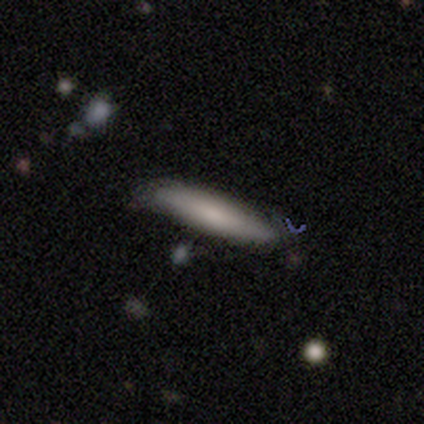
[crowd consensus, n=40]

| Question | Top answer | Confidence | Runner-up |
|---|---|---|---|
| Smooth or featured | smooth | 78% | featured or disk (20%) |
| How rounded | cigar-shaped | 97% | round (3%) |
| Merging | none | 77% | minor disturbance (18%) |